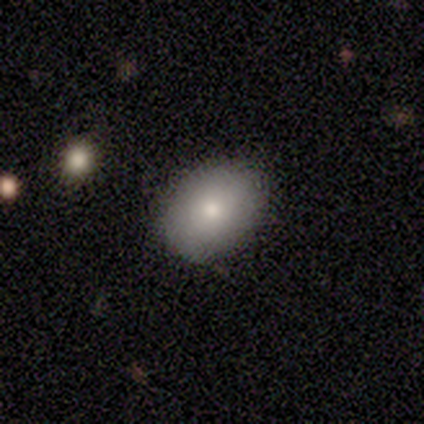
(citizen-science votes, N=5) Overall: smooth (60%; star or artifact 40%). How rounded: round (67%; in between 33%). Merging: none (100%).